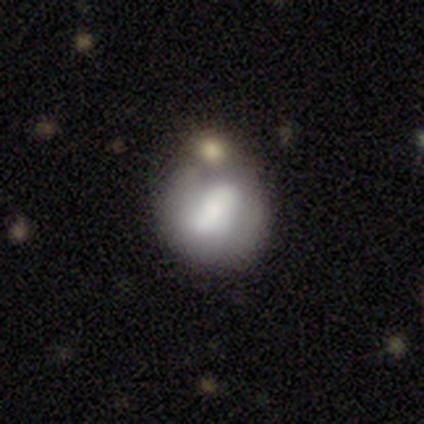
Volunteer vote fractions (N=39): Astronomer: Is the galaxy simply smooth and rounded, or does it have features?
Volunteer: smooth — 46%, tied with featured or disk at 46%.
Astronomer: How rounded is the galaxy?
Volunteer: round — 89%.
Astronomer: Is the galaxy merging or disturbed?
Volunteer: none — 33% (runner-up: minor disturbance, 28%).